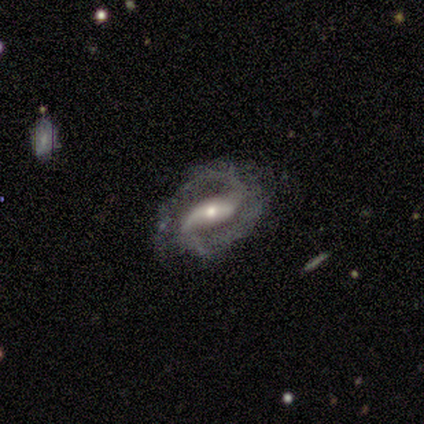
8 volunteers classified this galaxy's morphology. A featured or disk galaxy (100%) with a strong bar (75%), 2 (100%) medium (62%) spiral arms (100%) and a moderate central bulge (50%).

Vote fractions:
- Smooth or featured? featured or disk: 100% / smooth: 0% / star or artifact: 0%
- Edge-on disk? no: 100% / yes: 0%
- Bar? strong: 75% / weak: 12% / no: 12%
- Spiral arms? yes: 100% / no: 0%
- Spiral winding? medium: 62% / tight: 25% / loose: 12%
- Spiral arm count? 2: 100% / 1: 0% / 3: 0% / 4: 0% / more than 4: 0% / can't tell: 0%
- Bulge size? moderate: 50% / small: 38% / none: 12% / dominant: 0% / large: 0%
- Merging? none: 50% (tied) / minor disturbance: 50% (tied) / major disturbance: 0% / merger: 0%